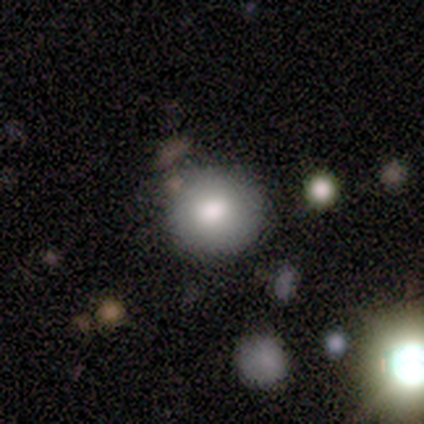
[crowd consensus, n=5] Q: Smooth or featured?
A: smooth (40%); tied with: star or artifact (40%)
Q: How rounded?
A: round (100%)
Q: Merging?
A: none (33%); tied with: minor disturbance (33%); major disturbance (33%)